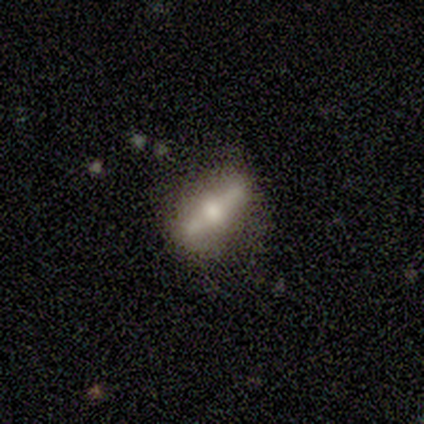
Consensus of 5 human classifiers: Smooth or featured?
  - featured or disk: 60% *
  - smooth: 20%
  - star or artifact: 20%
Edge-on disk?
  - yes: 100% *
  - no: 0%
Edge-on bulge?
  - rounded: 100% *
  - boxy: 0%
  - none: 0%
Merging?
  - none: 75% *
  - minor disturbance: 25%
  - major disturbance: 0%
  - merger: 0%